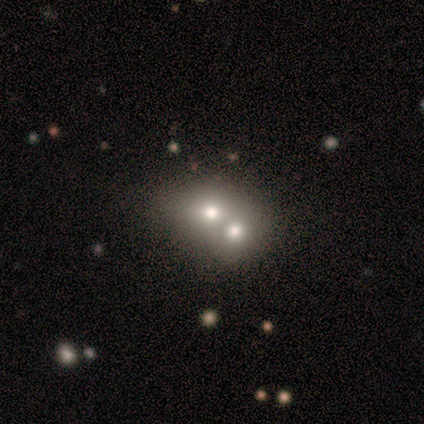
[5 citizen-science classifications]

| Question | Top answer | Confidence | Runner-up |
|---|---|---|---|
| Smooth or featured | smooth | 60% | featured or disk (40%) |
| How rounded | round | 100% | — |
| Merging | merger | 100% | — |